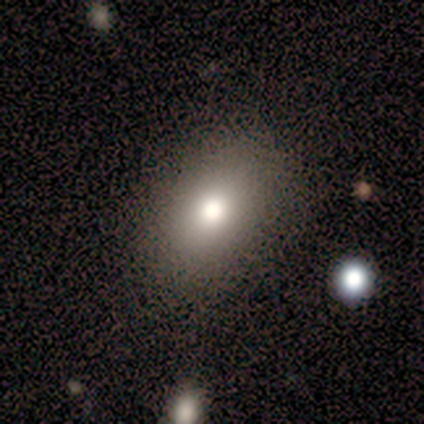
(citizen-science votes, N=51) smooth_or_featured: smooth (p=0.88) [alt: featured or disk p=0.10]
how_rounded: in between (p=0.84) [alt: round p=0.16]
merging: none (p=0.84) [alt: minor disturbance p=0.10]